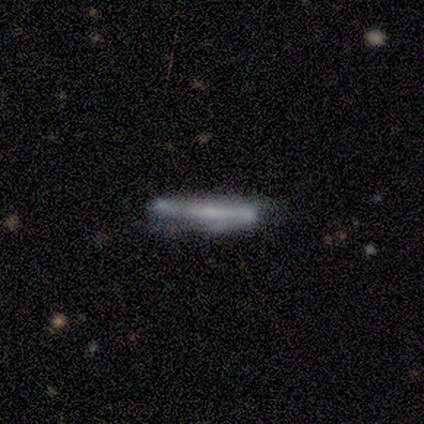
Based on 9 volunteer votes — Smooth or featured?
  - featured or disk: 56% *
  - smooth: 44%
  - star or artifact: 0%
Edge-on disk?
  - no: 60% *
  - yes: 40%
Bar?
  - no: 67% *
  - strong: 33%
  - weak: 0%
Spiral arms?
  - yes: 100% *
  - no: 0%
Spiral winding?
  - loose: 67% *
  - tight: 33%
  - medium: 0%
Spiral arm count?
  - 2: 100% *
  - 1: 0%
  - 3: 0%
  - 4: 0%
  - more than 4: 0%
  - can't tell: 0%
Bulge size?
  - small: 67% *
  - none: 33%
  - dominant: 0%
  - large: 0%
  - moderate: 0%
Merging?
  - none: 67% *
  - minor disturbance: 33%
  - major disturbance: 0%
  - merger: 0%